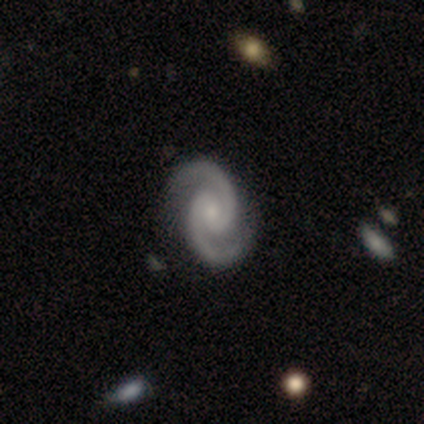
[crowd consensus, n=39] A featured or disk galaxy (100%) with no bar (54%), 2 (97%) medium (67%) spiral arms (100%) and a small central bulge (74%). Merging: none (54%).